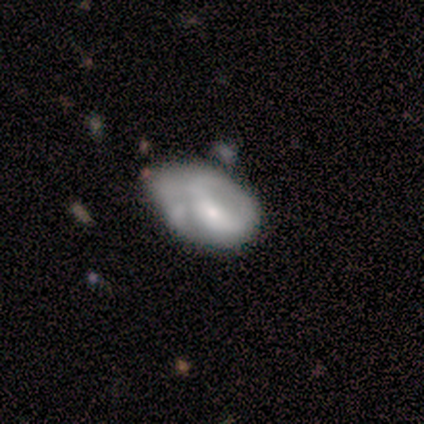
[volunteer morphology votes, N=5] A featured or disk galaxy (80%) with no bar (75%), 1 (33%, tied with 3 and can't tell) medium (67%) spiral arms (75%) and a moderate central bulge (75%). Merging: major disturbance (60%).